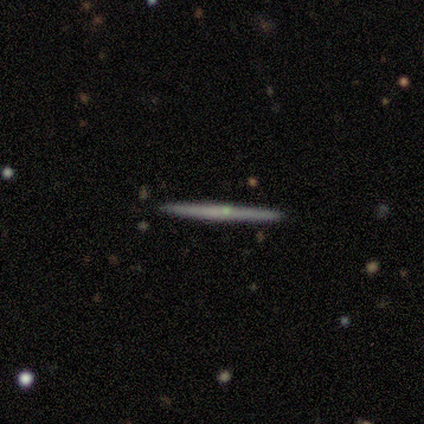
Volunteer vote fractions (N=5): smooth 40% (tied), featured or disk 40% (tied), star or artifact 20%. Down the decision tree: how rounded — cigar-shaped (100%); merging — none (100%).